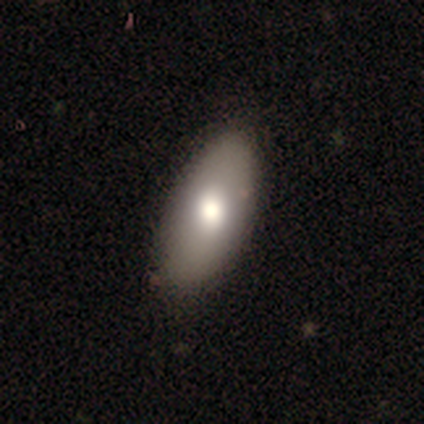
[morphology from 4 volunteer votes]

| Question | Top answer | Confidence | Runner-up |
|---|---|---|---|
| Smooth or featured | smooth | 100% | — |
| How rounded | in between | 100% | — |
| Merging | none | 75% | minor disturbance (25%) |